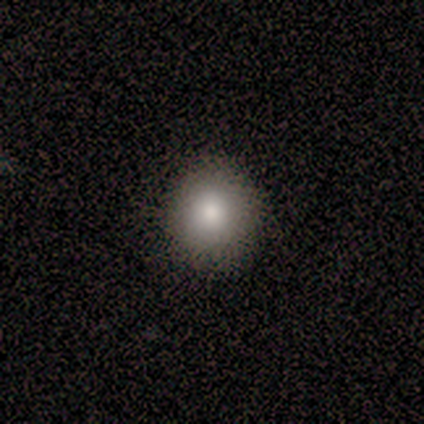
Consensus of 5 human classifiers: Overall: smooth (80%). How rounded: round (75%). Merging: none (100%).